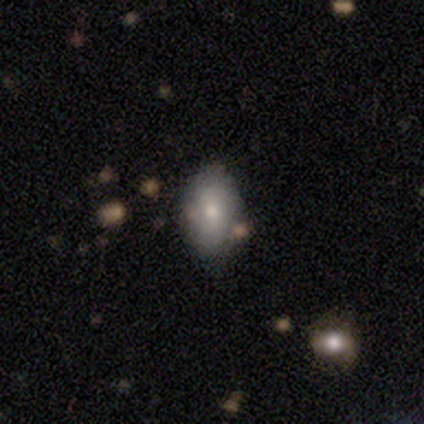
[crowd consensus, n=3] Smooth or featured?
  - smooth: 67% *
  - featured or disk: 33%
  - star or artifact: 0%
How rounded?
  - in between: 100% *
  - round: 0%
  - cigar-shaped: 0%
Merging?
  - none: 100% *
  - minor disturbance: 0%
  - major disturbance: 0%
  - merger: 0%